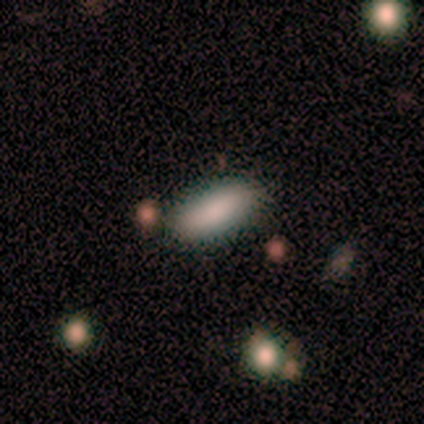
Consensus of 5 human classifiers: Volunteers were most divided on "smooth or featured": smooth: 80%, star or artifact: 20%, featured or disk: 0%. More confident: how rounded — in between (100%); merging — none (100%).